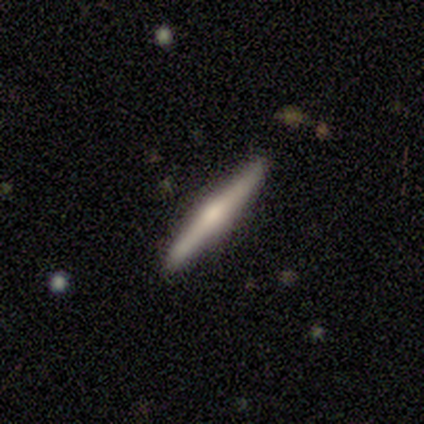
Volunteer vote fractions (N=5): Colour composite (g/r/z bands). It shows a featured or disk galaxy (60%) viewed edge-on (100%) with a rounded central bulge (67%). Merging: none (100%).